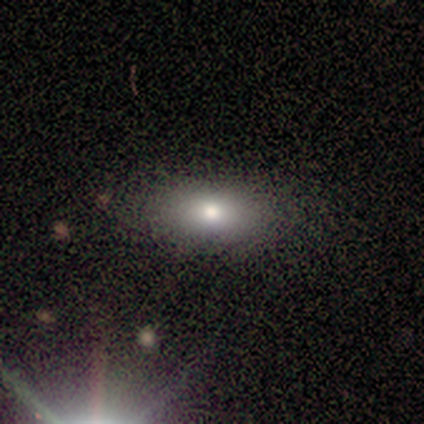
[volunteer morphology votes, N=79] Smooth or featured: smooth — 77% (featured or disk — 16%)
How rounded: in between — 93% (round — 3%)
Merging: none — 54% (minor disturbance — 5%)